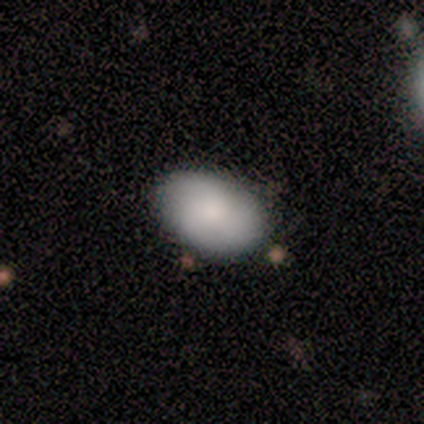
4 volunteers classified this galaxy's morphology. This appears to be a smooth galaxy with no disk features (100%) that is in between round and cigar-shaped (100%). Merging: none (100%).